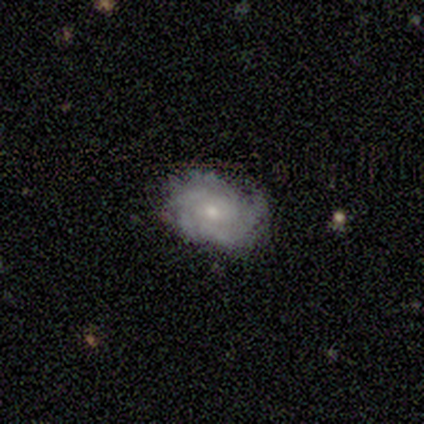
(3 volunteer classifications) Smooth or featured: featured or disk — 67% (smooth — 33%)
Edge-on disk: no — 100%
Bar: no — 100%
Spiral arms: yes — 100%
Spiral winding: tight — 100%
Spiral arm count: 2 — 50% (tied with 3 — 50%)
Bulge size: moderate — 100%
Merging: none — 67% (minor disturbance — 33%)